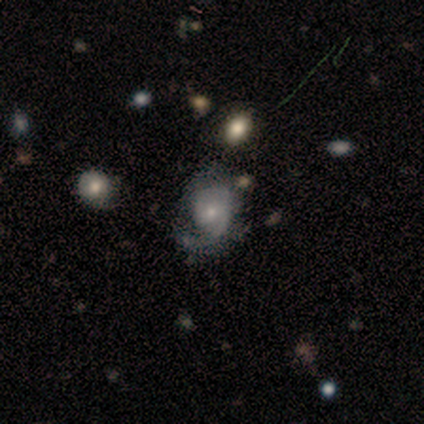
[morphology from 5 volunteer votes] Smooth or featured? featured or disk (100%)
Edge-on disk? no (100%)
Bar? no (60%)
Spiral arms? yes (80%)
Spiral winding? medium (50%)
Spiral arm count? 1 (75%)
Bulge size? small (80%)
Merging? none (40%, tied with major disturbance)